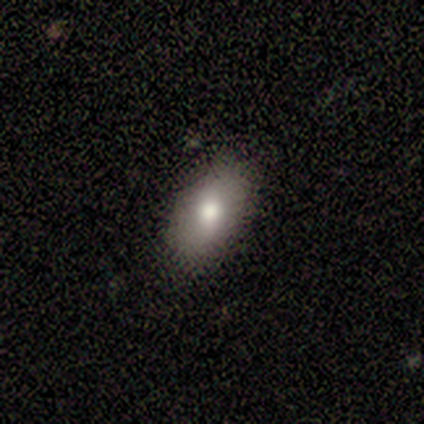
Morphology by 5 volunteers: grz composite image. It shows a smooth galaxy with no disk features (60%) that is in between round and cigar-shaped (100%). Merging: none (80%).